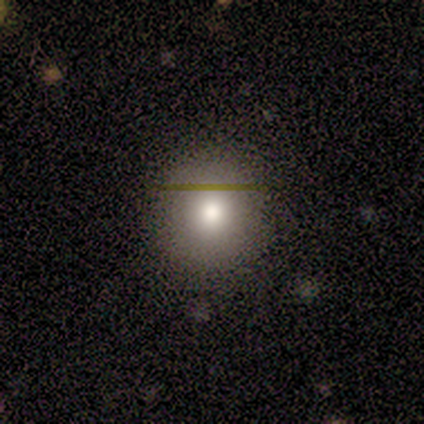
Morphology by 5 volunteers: A smooth galaxy with no disk features (100%) that is round (100%). Merging: none (100%).